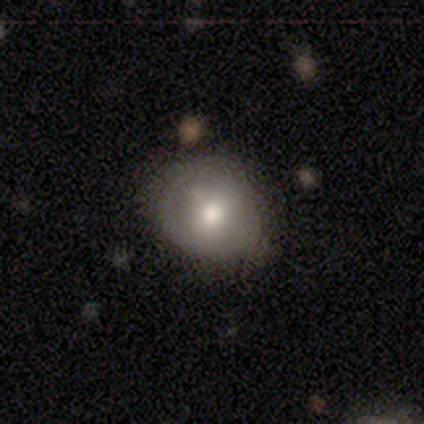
smooth 70%, featured or disk 24%, star or artifact 7%. Down the decision tree: how rounded — round (78%); merging — none (74%).